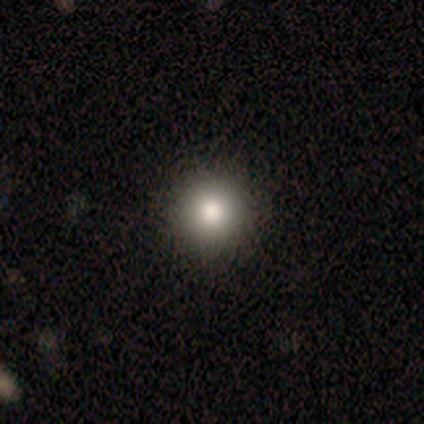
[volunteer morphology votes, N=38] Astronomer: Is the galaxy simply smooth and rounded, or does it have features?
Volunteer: smooth — 76%.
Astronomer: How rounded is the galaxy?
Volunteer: round — 100%.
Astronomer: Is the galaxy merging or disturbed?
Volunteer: none — 97%.